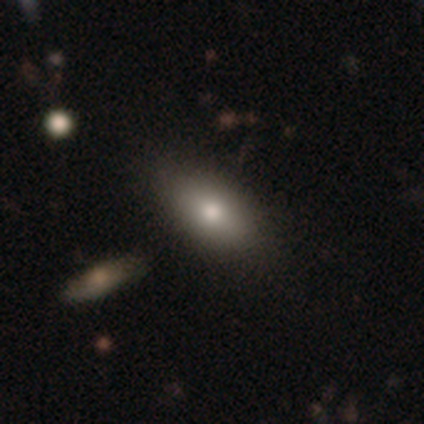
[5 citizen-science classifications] smooth 100%, featured or disk 0%, star or artifact 0%. Down the decision tree: how rounded — in between (80%); merging — none (80%).